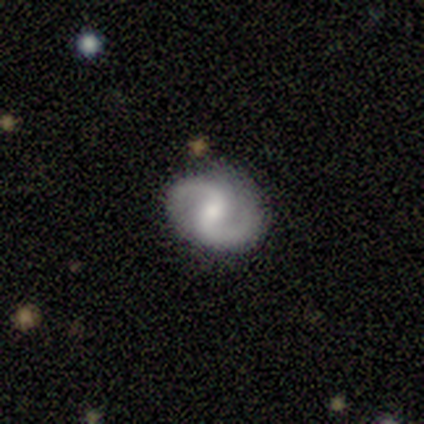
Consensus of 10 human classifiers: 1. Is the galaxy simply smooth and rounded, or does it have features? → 100% featured or disk, 0% smooth, 0% star or artifact.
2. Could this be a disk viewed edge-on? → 100% no, 0% yes.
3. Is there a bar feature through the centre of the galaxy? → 50% weak, 30% strong, 20% no.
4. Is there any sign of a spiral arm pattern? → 100% yes, 0% no.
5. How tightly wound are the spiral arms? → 60% medium, 20% tight, 20% loose.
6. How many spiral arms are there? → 100% 2, 0% 1, 0% 3, 0% 4, 0% more than 4, 0% can't tell.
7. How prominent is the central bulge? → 50% moderate, 40% small, 10% large, 0% dominant, 0% none.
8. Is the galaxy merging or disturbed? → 100% none, 0% minor disturbance, 0% major disturbance, 0% merger.